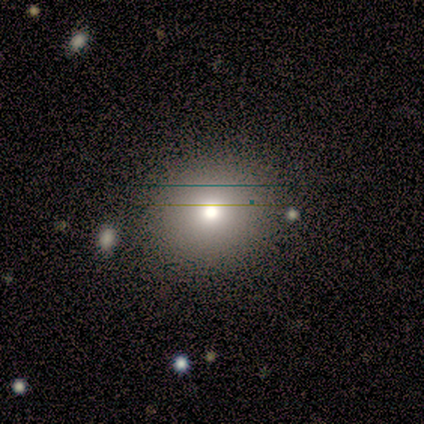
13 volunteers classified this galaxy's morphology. type=smooth (85%); roundness=round (91%); merging=none (100%).